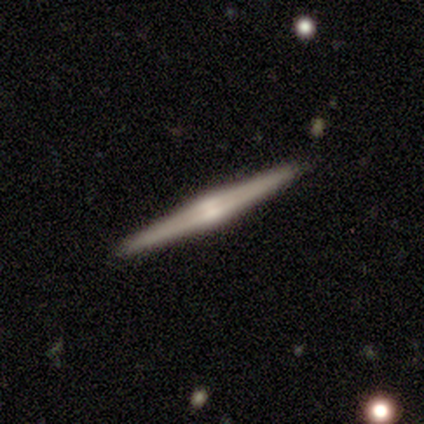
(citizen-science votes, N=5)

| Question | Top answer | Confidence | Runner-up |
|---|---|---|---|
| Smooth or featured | featured or disk | 100% | — |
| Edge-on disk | yes | 100% | — |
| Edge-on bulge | rounded | 100% | — |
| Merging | none | 100% | — |